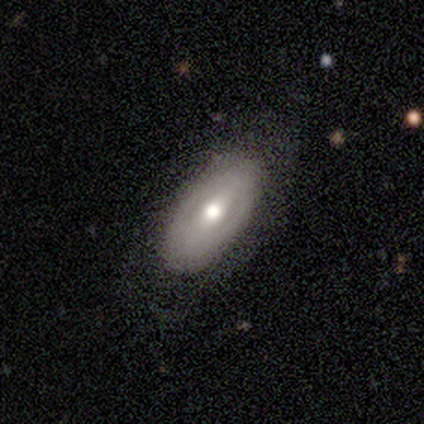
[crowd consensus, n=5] Smooth or featured: featured or disk — 80% (star or artifact — 20%)
Edge-on disk: yes — 50% (tied with no — 50%)
Edge-on bulge: none — 50% (tied with rounded — 50%)
Merging: none — 100%